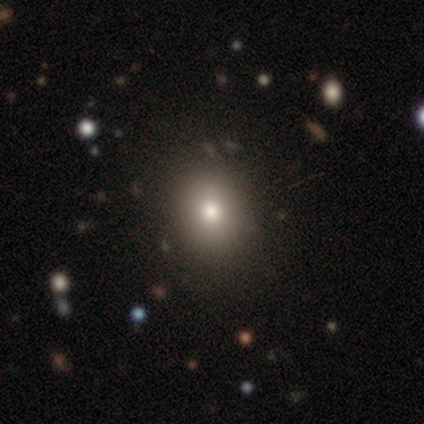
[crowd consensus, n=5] Smooth or featured: smooth — 80% (star or artifact — 20%)
How rounded: round — 75% (in between — 25%)
Merging: none — 100%